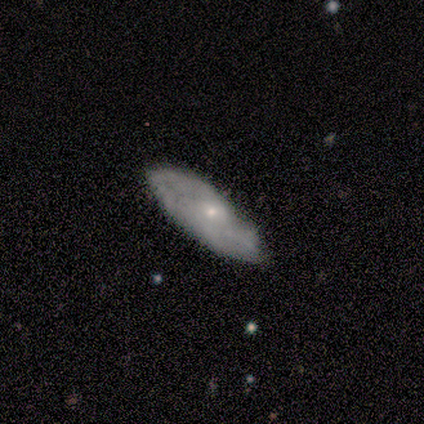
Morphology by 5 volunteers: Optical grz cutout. It shows a featured or disk galaxy (60%) with no bar (100%), no spiral arms (100%) and a small central bulge (100%). Merging: none (80%).